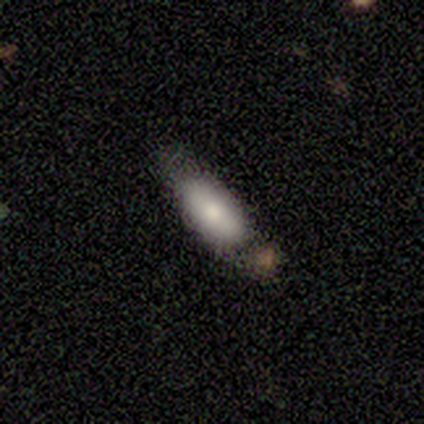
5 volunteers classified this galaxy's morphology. type=smooth (100%); roundness=in between (100%); merging=none (80%).